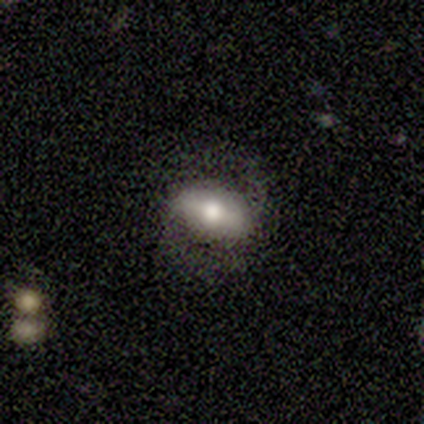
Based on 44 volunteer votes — smooth_or_featured: featured or disk (p=0.57) [alt: smooth p=0.39]
disk_edge_on: no (p=0.88) [alt: yes p=0.12]
bar: strong (p=0.64) [alt: no p=0.23]
has_spiral_arms: yes (p=0.86) [alt: no p=0.14]
spiral_winding: medium (p=0.53) [alt: loose p=0.32]
spiral_arm_count: 2 (p=1.00)
bulge_size: moderate (p=0.59) [alt: large p=0.32]
merging: none (p=0.64) [alt: minor disturbance p=0.19]